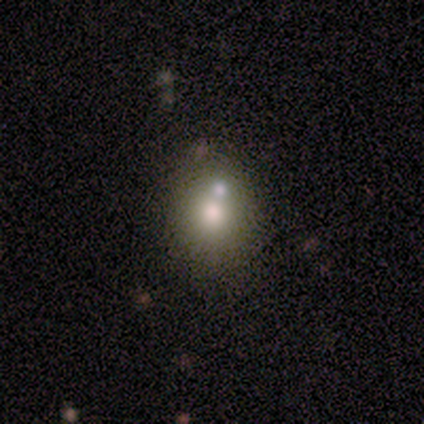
Smooth or featured? smooth (75%)
How rounded? in between (67%)
Merging? none (50%, tied with merger)